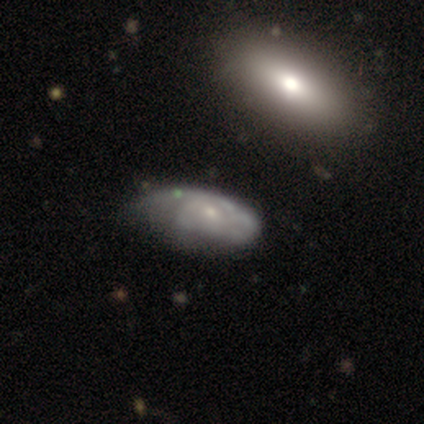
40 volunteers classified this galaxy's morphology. This appears to be a featured or disk galaxy (62%) with no bar (83%), tight (60%) spiral arms (65%) and a small central bulge (83%). Merging: none (33%).